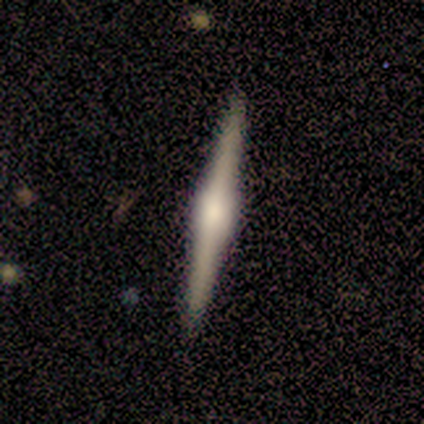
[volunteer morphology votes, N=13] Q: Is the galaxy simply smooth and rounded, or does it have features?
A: featured or disk — 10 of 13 (77%).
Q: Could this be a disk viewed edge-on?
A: yes — 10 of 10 (100%).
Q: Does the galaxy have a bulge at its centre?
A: rounded — 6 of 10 (60%).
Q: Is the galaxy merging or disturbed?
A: none — 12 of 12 (100%).